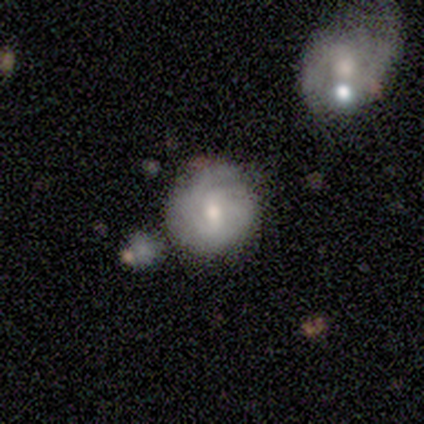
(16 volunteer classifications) This appears to be a featured or disk galaxy (75%) with a weak bar (55%), 4 (33%, tied with can't tell) tight (67%) spiral arms (82%) and a moderate central bulge (64%). Merging: none (56%).